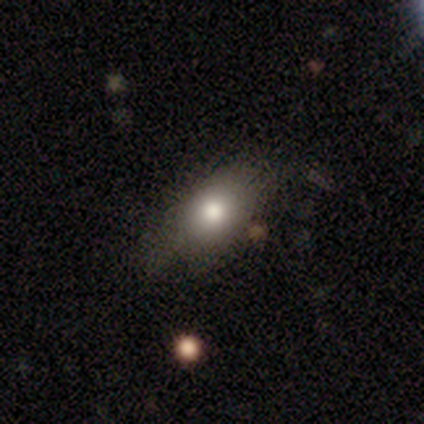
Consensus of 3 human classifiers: Smooth or featured?
  - smooth: 33% * (tied)
  - featured or disk: 33% * (tied)
  - star or artifact: 33% * (tied)
How rounded?
  - in between: 100% *
  - round: 0%
  - cigar-shaped: 0%
Merging?
  - none: 50% * (tied)
  - major disturbance: 50% * (tied)
  - minor disturbance: 0%
  - merger: 0%